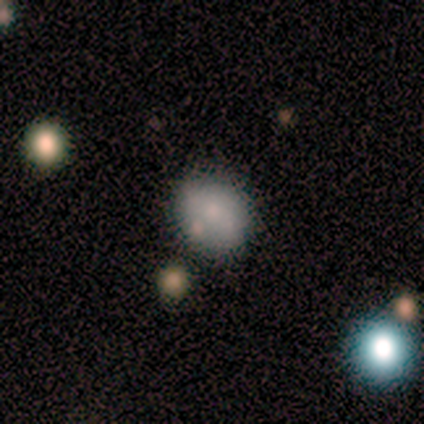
This is clearly a smooth galaxy (80%). How rounded: possibly round (50%, tied with in between). Merging: clearly none (80%).